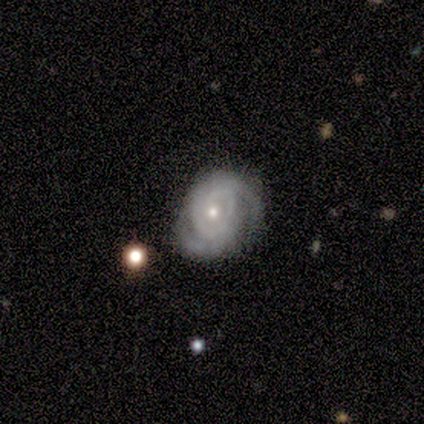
A featured or disk galaxy (80%) with a weak bar (50%), tight (50%) spiral arms (100%) and a small central bulge (75%). Merging: none (60%).